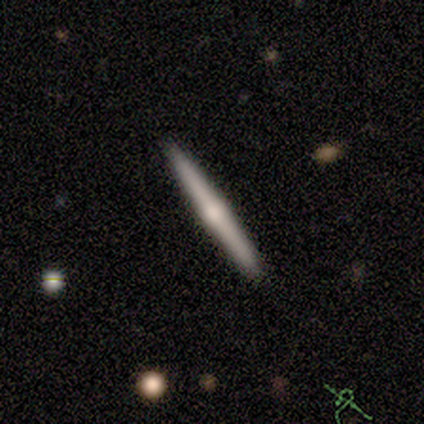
Morphology: type=featured or disk (60%); edge-on=yes (100%); edge-on bulge=rounded (100%); merging=none (80%).